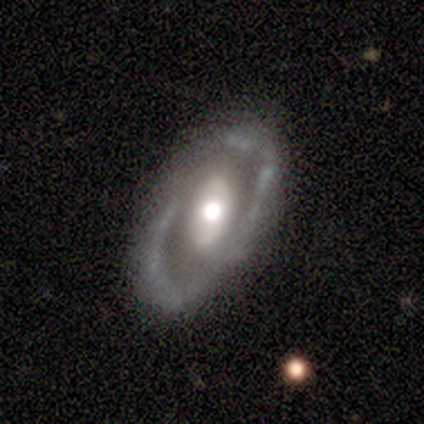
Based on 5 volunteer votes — Smooth or featured?
  - featured or disk: 100% *
  - smooth: 0%
  - star or artifact: 0%
Edge-on disk?
  - no: 80% *
  - yes: 20%
Bar?
  - no: 75% *
  - weak: 25%
  - strong: 0%
Spiral arms?
  - yes: 50% * (tied)
  - no: 50% * (tied)
Spiral winding?
  - medium: 100% *
  - tight: 0%
  - loose: 0%
Spiral arm count?
  - 2: 100% *
  - 1: 0%
  - 3: 0%
  - 4: 0%
  - more than 4: 0%
  - can't tell: 0%
Bulge size?
  - moderate: 100% *
  - dominant: 0%
  - large: 0%
  - small: 0%
  - none: 0%
Merging?
  - none: 60% *
  - minor disturbance: 20%
  - major disturbance: 20%
  - merger: 0%